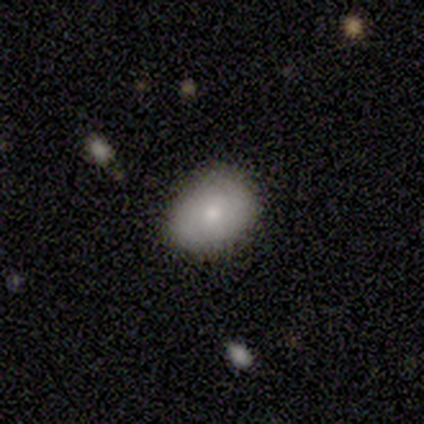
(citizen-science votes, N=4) Q: Smooth or featured?
A: smooth (75%); runner-up: featured or disk (25%)
Q: How rounded?
A: in between (67%); runner-up: round (33%)
Q: Merging?
A: none (75%); runner-up: major disturbance (25%)